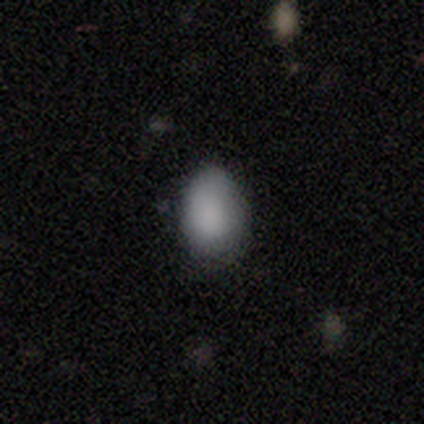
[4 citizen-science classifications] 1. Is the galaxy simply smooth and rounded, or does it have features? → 100% smooth, 0% featured or disk, 0% star or artifact.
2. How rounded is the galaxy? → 75% round, 25% in between, 0% cigar-shaped.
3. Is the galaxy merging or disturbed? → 100% none, 0% minor disturbance, 0% major disturbance, 0% merger.